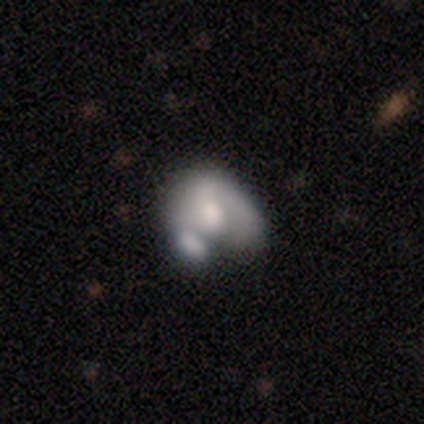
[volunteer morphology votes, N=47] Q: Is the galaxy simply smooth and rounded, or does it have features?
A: smooth — 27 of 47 (57%).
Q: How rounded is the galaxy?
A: in between — 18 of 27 (67%).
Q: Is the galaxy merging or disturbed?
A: merger — 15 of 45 (33%).